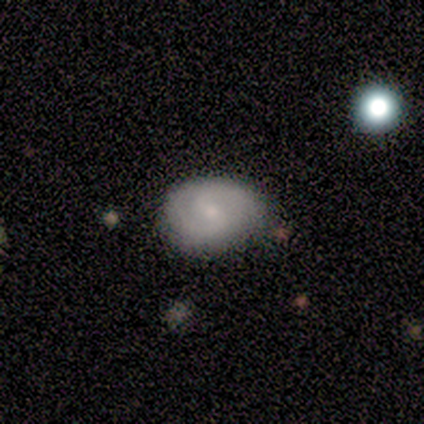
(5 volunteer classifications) A featured or disk galaxy (100%) with a weak bar (40%, tied with no), 2 (80%) tight (60%) spiral arms (100%) and a small central bulge (80%). Merging: none (60%).